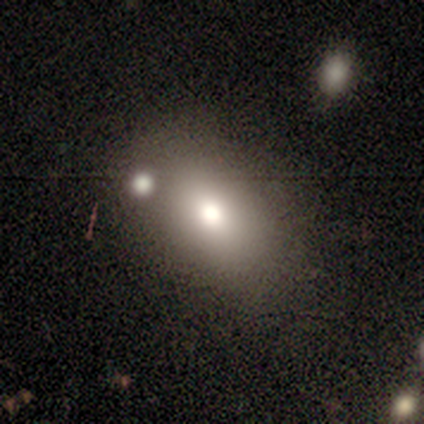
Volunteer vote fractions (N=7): Volunteers were most divided on "how rounded" (2-way tie): round: 50%, in between: 50%, cigar-shaped: 0%. More confident: smooth or featured — smooth (86%); merging — none (86%).